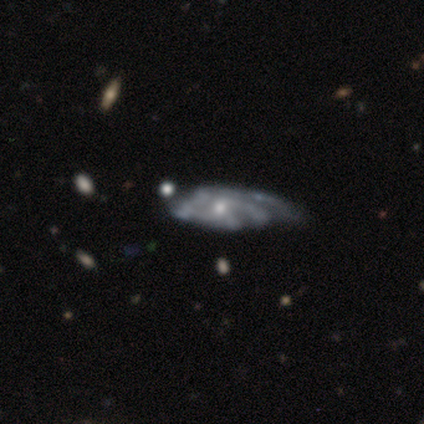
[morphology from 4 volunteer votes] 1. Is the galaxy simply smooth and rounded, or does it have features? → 75% featured or disk, 25% smooth, 0% star or artifact.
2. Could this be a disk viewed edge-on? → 67% no, 33% yes.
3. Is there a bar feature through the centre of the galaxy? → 100% no, 0% strong, 0% weak.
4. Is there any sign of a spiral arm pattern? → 100% yes, 0% no.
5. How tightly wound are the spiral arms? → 50% medium (tied), 50% loose (tied), 0% tight.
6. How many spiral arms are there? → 50% 4 (tied), 50% can't tell (tied), 0% 1, 0% 2, 0% 3, 0% more than 4.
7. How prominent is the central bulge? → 50% moderate (tied), 50% small (tied), 0% dominant, 0% large, 0% none.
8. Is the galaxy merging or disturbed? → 50% minor disturbance, 25% none, 25% major disturbance, 0% merger.